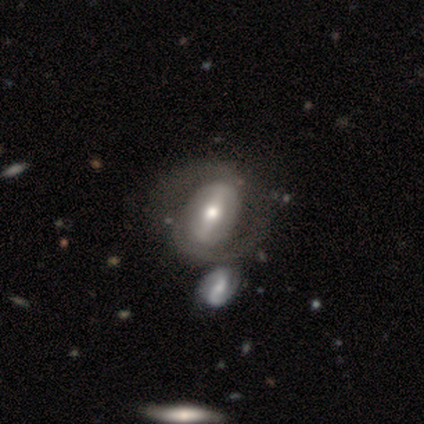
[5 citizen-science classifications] Smooth or featured: featured or disk — 100%
Edge-on disk: no — 100%
Bar: strong — 60% (weak — 20%)
Spiral arms: no — 60% (yes — 40%)
Bulge size: moderate — 80% (large — 20%)
Merging: none — 40% (tied with minor disturbance — 40%)